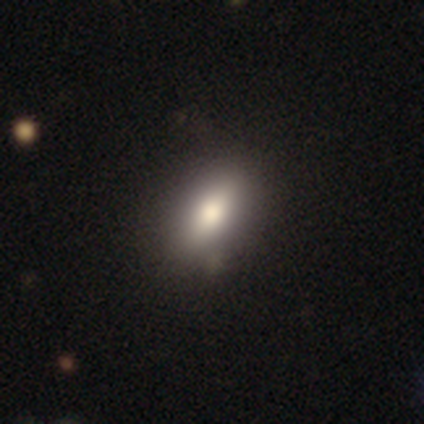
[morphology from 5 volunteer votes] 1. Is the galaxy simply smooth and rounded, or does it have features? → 60% smooth, 20% featured or disk, 20% star or artifact.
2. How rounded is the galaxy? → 67% in between, 33% cigar-shaped, 0% round.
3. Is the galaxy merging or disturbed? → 50% none (tied), 50% minor disturbance (tied), 0% major disturbance, 0% merger.